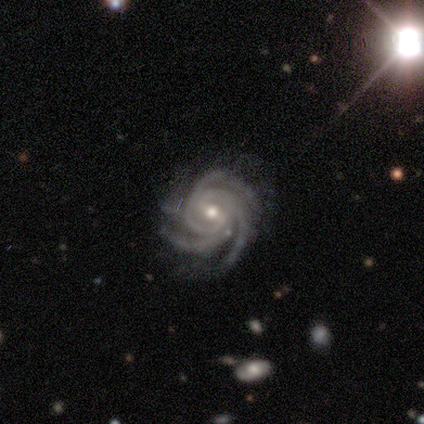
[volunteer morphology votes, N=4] A featured or disk galaxy (100%) with a weak bar (100%), 3 (50%, tied with 4) tight (50%, tied with medium) spiral arms (100%) and a small central bulge (75%).

Vote fractions:
- Smooth or featured? featured or disk: 100% / smooth: 0% / star or artifact: 0%
- Edge-on disk? no: 100% / yes: 0%
- Bar? weak: 100% / strong: 0% / no: 0%
- Spiral arms? yes: 100% / no: 0%
- Spiral winding? tight: 50% (tied) / medium: 50% (tied) / loose: 0%
- Spiral arm count? 3: 50% (tied) / 4: 50% (tied) / 1: 0% / 2: 0% / more than 4: 0% / can't tell: 0%
- Bulge size? small: 75% / moderate: 25% / dominant: 0% / large: 0% / none: 0%
- Merging? none: 100% / minor disturbance: 0% / major disturbance: 0% / merger: 0%